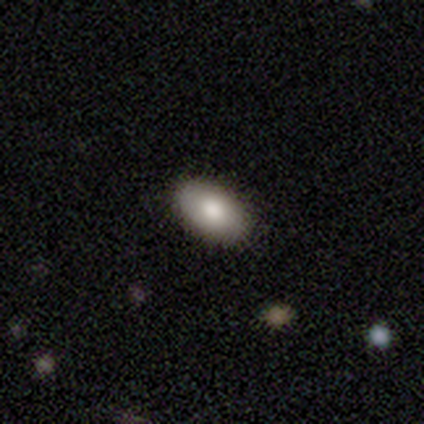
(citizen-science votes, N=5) Smooth or featured: smooth — 80% (featured or disk — 20%)
How rounded: in between — 100%
Merging: none — 100%